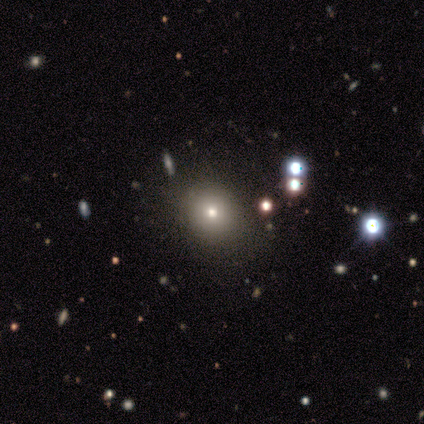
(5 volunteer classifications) Smooth or featured? 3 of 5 (60%) said smooth. How rounded? 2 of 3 (67%) said round. Merging? 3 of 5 (60%) said none.